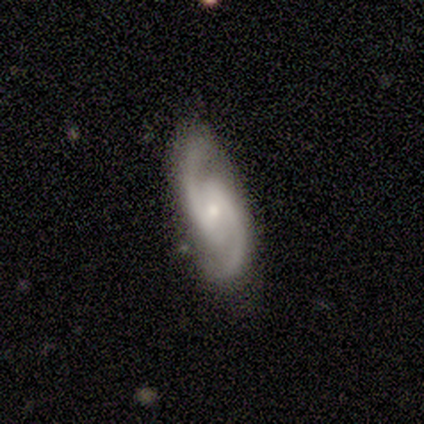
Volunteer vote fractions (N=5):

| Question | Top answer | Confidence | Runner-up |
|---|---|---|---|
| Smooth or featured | featured or disk | 80% | smooth (20%) |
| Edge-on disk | no | 100% | — |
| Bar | no | 75% | weak (25%) |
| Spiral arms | yes | 100% | — |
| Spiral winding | medium | 75% | loose (25%) |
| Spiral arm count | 2 | 75% | can't tell (25%) |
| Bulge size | moderate | 50% | tied: small (50%) |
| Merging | none | 60% | minor disturbance (20%) |